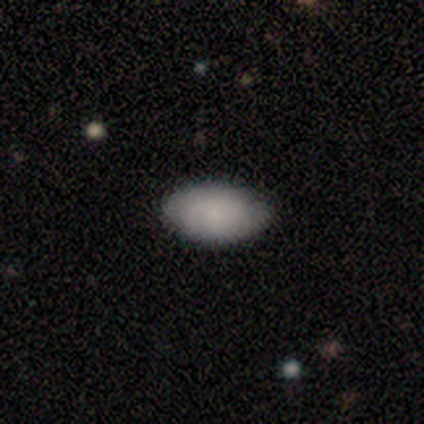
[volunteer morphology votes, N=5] A smooth galaxy with no disk features (80%) that is in between round and cigar-shaped (100%).

Vote fractions:
- Smooth or featured? smooth: 80% / featured or disk: 20% / star or artifact: 0%
- How rounded? in between: 100% / round: 0% / cigar-shaped: 0%
- Merging? none: 60% / minor disturbance: 40% / major disturbance: 0% / merger: 0%